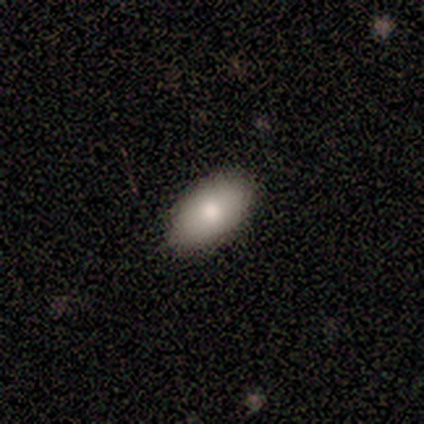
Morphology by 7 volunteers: A smooth galaxy with no disk features (71%) that is in between round and cigar-shaped (100%). Merging: none (100%).